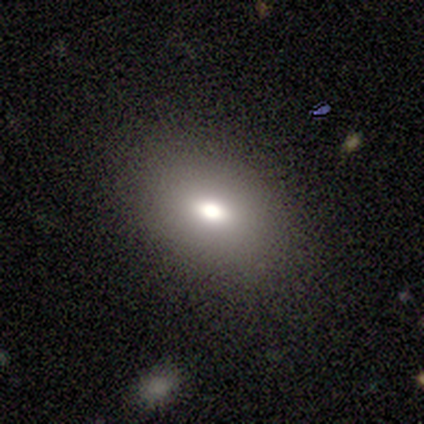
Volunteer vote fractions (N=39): This is likely a smooth galaxy (72%). How rounded: likely in between (79%). Merging: likely none (78%).